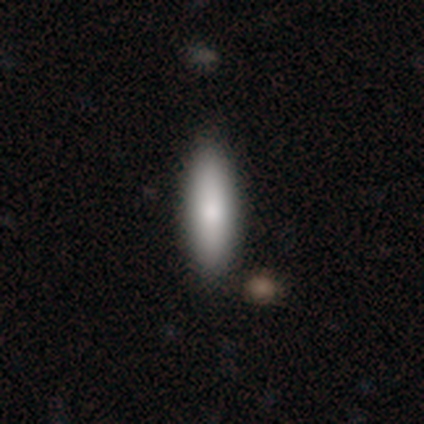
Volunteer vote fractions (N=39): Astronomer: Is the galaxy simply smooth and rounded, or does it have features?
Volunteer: smooth — 79%.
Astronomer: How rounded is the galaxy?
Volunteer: in between — 58% (runner-up: cigar-shaped, 42%).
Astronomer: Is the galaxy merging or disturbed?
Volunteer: none — 62%.